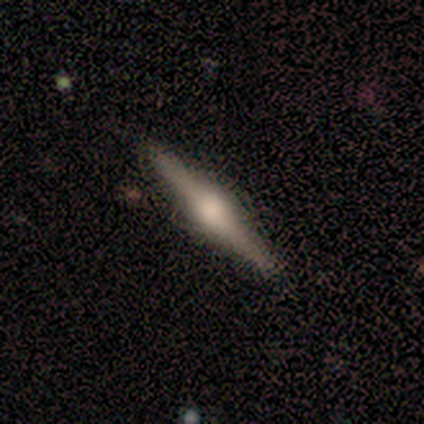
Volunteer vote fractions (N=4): smooth_or_featured: featured or disk (p=1.00)
disk_edge_on: yes (p=1.00)
edge_on_bulge: rounded (p=0.75) [alt: boxy p=0.25]
merging: none (p=1.00)